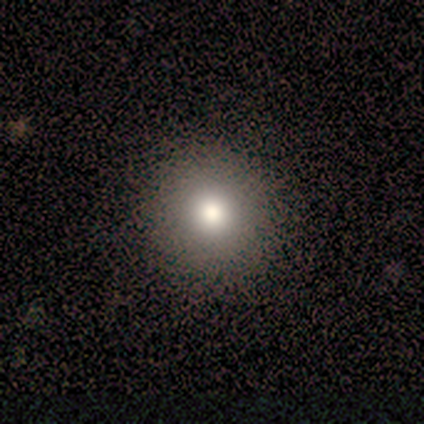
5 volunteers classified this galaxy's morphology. A smooth galaxy with no disk features (100%) that is round (100%).

Vote fractions:
- Smooth or featured? smooth: 100% / featured or disk: 0% / star or artifact: 0%
- How rounded? round: 100% / in between: 0% / cigar-shaped: 0%
- Merging? none: 100% / minor disturbance: 0% / major disturbance: 0% / merger: 0%